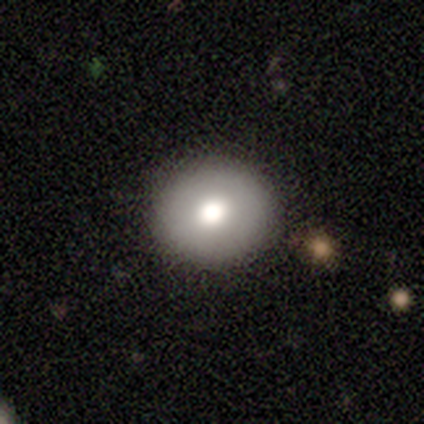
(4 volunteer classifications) Smooth or featured? smooth (100%)
How rounded? round (75%)
Merging? none (75%)